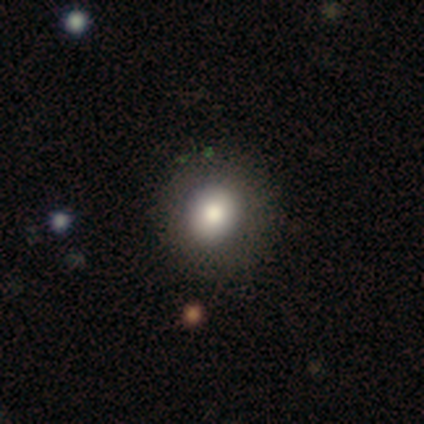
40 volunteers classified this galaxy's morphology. smooth_or_featured: smooth (p=0.68) [alt: featured or disk p=0.25]
how_rounded: round (p=0.81) [alt: in between p=0.19]
merging: none (p=0.68) [alt: minor disturbance p=0.05]